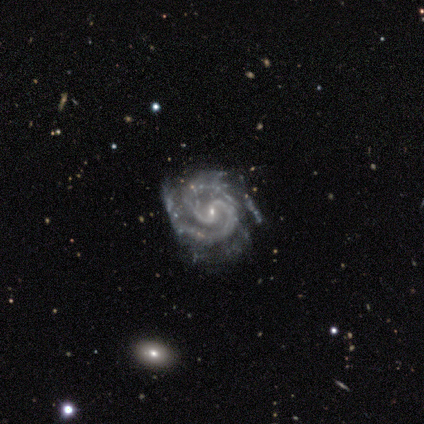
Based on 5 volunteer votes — Q: Smooth or featured?
A: featured or disk (100%)
Q: Edge-on disk?
A: no (100%)
Q: Bar?
A: weak (80%); runner-up: no (20%)
Q: Spiral arms?
A: yes (100%)
Q: Spiral winding?
A: medium (60%); runner-up: tight (40%)
Q: Spiral arm count?
A: 2 (100%)
Q: Bulge size?
A: small (80%); runner-up: moderate (20%)
Q: Merging?
A: none (80%); runner-up: minor disturbance (20%)